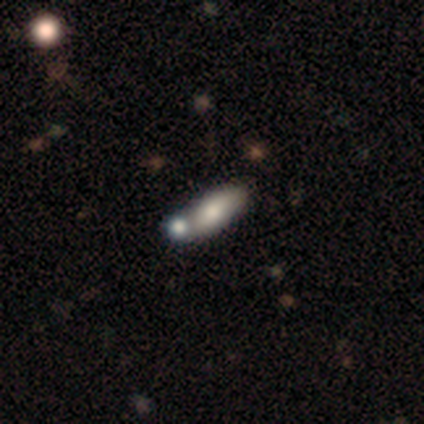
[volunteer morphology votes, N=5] Smooth or featured? 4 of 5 (80%) said smooth. How rounded? 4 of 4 (100%) said in between. Merging? 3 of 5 (60%) said merger.